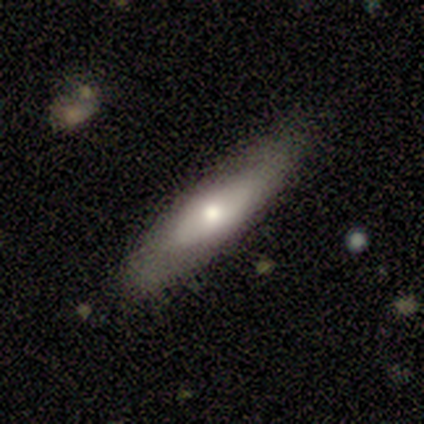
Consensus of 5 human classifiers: Smooth or featured? 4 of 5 (80%) said smooth. How rounded? 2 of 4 (50%, tied with cigar-shaped) said in between. Merging? 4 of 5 (80%) said none.